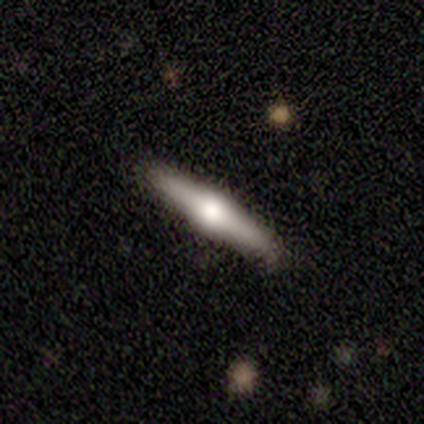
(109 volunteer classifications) Smooth or featured?
  - featured or disk: 75% *
  - smooth: 23%
  - star or artifact: 2%
Edge-on disk?
  - yes: 99% *
  - no: 1%
Edge-on bulge?
  - rounded: 98% *
  - boxy: 2%
  - none: 0%
Merging?
  - none: 83% *
  - minor disturbance: 15%
  - merger: 2%
  - major disturbance: 0%